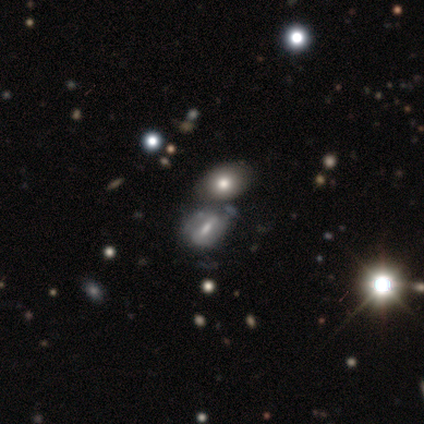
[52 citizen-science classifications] Smooth or featured?
  - featured or disk: 48% *
  - smooth: 35%
  - star or artifact: 17%
Edge-on disk?
  - no: 96% *
  - yes: 4%
Bar?
  - weak: 58% *
  - strong: 25%
  - no: 17%
Spiral arms?
  - no: 67% *
  - yes: 33%
Bulge size?
  - moderate: 38% *
  - small: 33%
  - none: 21%
  - dominant: 4%
  - large: 4%
Merging?
  - merger: 37% *
  - none: 28%
  - minor disturbance: 28%
  - major disturbance: 7%